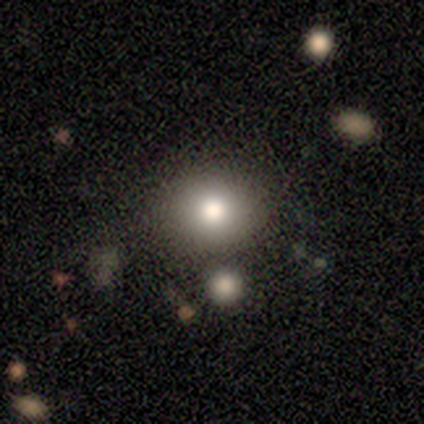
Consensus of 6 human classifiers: This appears to be a smooth galaxy with no disk features (83%) that is round (60%). Merging: none (67%).